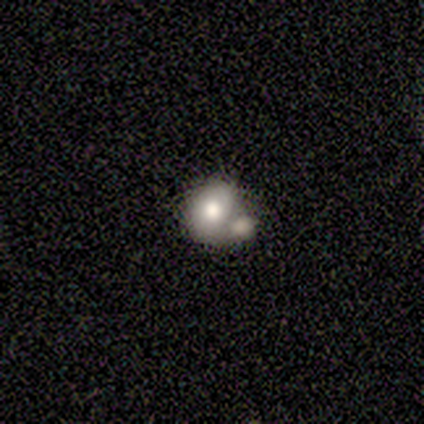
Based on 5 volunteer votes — smooth_or_featured: smooth (p=0.60) [alt: featured or disk p=0.40]
how_rounded: round (p=0.67) [alt: in between p=0.33]
merging: minor disturbance (p=0.40) [tied with: merger p=0.40]